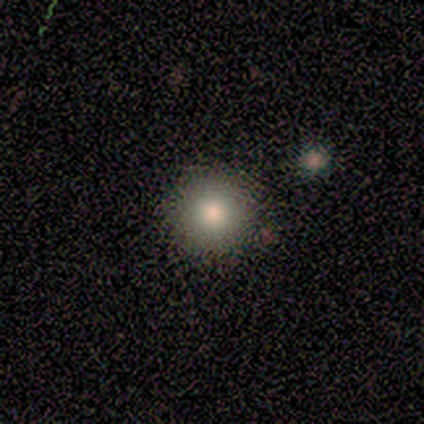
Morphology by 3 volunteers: A smooth galaxy with no disk features (100%) that is round (100%).

Vote fractions:
- Smooth or featured? smooth: 100% / featured or disk: 0% / star or artifact: 0%
- How rounded? round: 100% / in between: 0% / cigar-shaped: 0%
- Merging? none: 100% / minor disturbance: 0% / major disturbance: 0% / merger: 0%